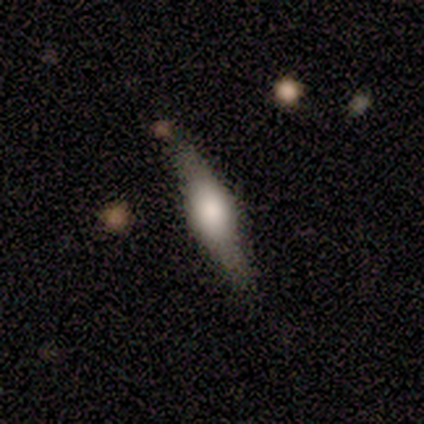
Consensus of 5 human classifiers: Morphology: type=featured or disk (60%); edge-on=yes (100%); edge-on bulge=rounded (67%); merging=none (80%).